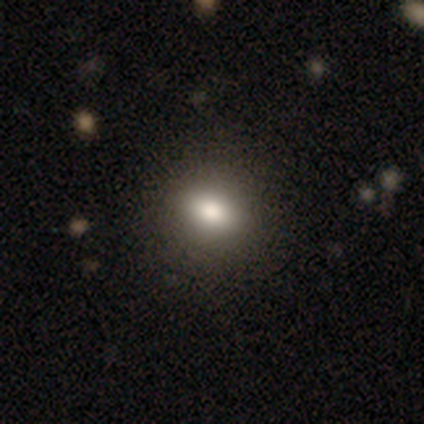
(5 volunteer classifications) smooth 100%, featured or disk 0%, star or artifact 0%. Down the decision tree: how rounded — in between (60%); merging — none (100%).